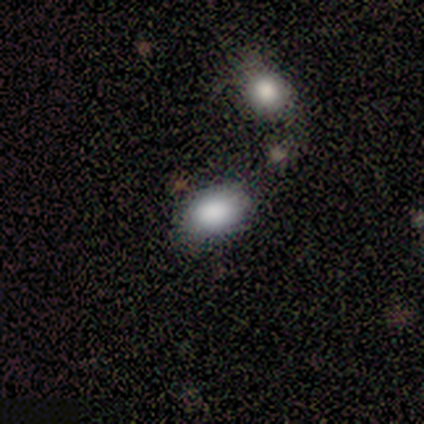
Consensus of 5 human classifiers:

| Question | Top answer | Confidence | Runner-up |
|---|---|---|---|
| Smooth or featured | smooth | 100% | — |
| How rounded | in between | 100% | — |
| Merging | none | 80% | minor disturbance (20%) |